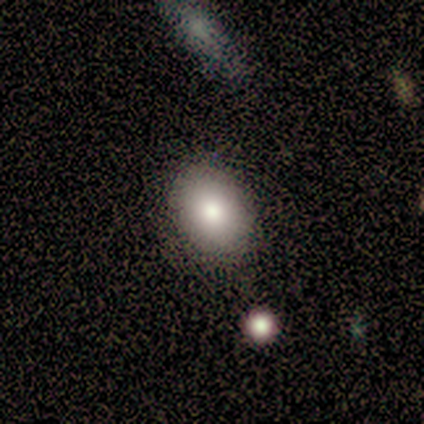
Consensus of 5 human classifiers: Q: Smooth or featured?
A: smooth (100%)
Q: How rounded?
A: round (60%); runner-up: in between (40%)
Q: Merging?
A: none (80%); runner-up: merger (20%)